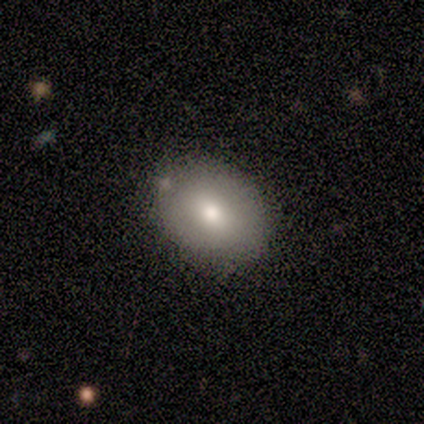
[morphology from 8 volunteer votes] Overall: smooth (88%). How rounded: in between (57%; round 43%). Merging: none (100%).